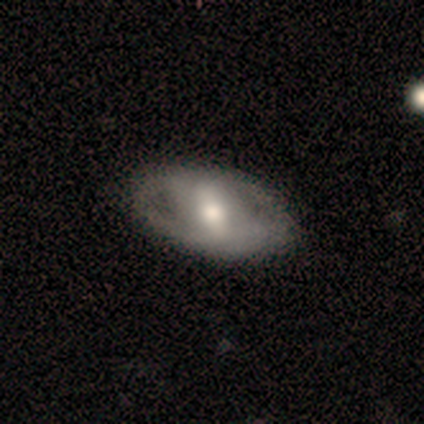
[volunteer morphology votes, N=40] Smooth or featured? 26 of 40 (65%) said featured or disk. Edge-on disk? 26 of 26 (100%) said no. Bar? 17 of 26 (65%) said strong. Spiral arms? 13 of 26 (50%, tied with no) said yes. Spiral winding? 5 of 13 (38%) said loose. Spiral arm count? 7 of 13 (54%) said 2. Bulge size? 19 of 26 (73%) said moderate. Merging? 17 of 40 (42%) said none.